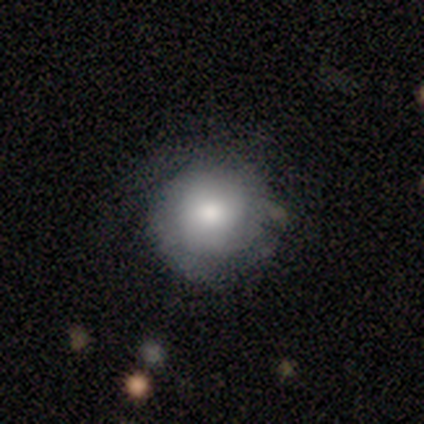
Overall: smooth (49%; featured or disk 44%). How rounded: round (89%). Merging: none (64%).